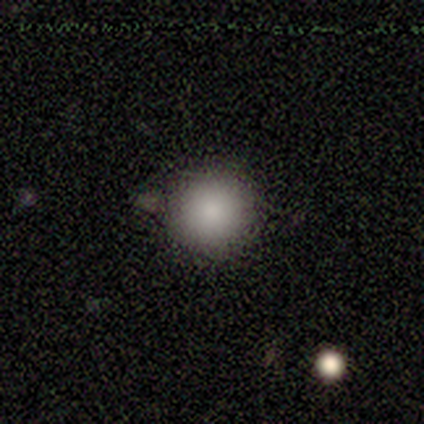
Smooth or featured? smooth (88%)
How rounded? round (100%)
Merging? none (93%)